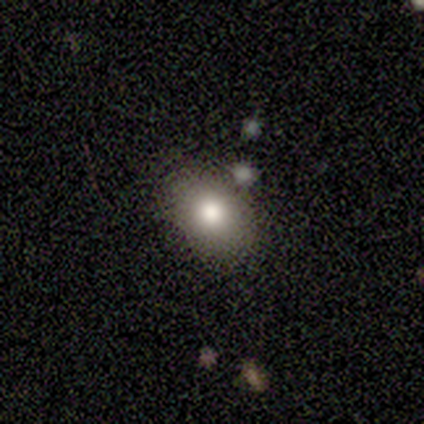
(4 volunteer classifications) This is likely a smooth galaxy (75%). How rounded: likely round (67%). Merging: likely none (75%).